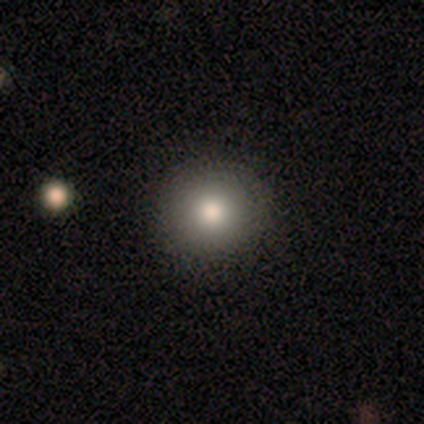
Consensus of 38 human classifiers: smooth 82%, star or artifact 13%, featured or disk 5%. Down the decision tree: how rounded — round (94%); merging — none (88%).